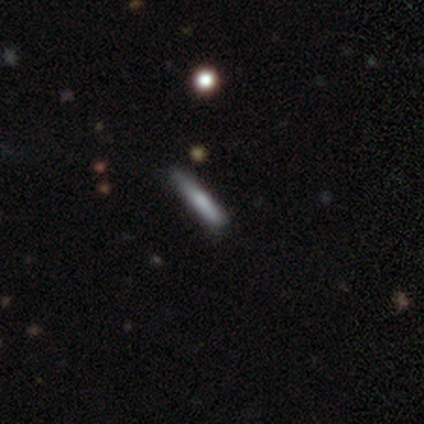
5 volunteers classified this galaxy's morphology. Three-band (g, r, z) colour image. It shows a smooth galaxy with no disk features (100%) that is cigar-shaped (100%). Merging: none (80%).